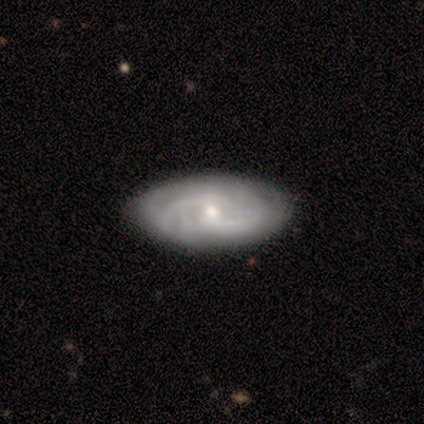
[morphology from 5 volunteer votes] Smooth or featured? 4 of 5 (80%) said featured or disk. Edge-on disk? 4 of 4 (100%) said no. Bar? 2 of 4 (50%) said no. Spiral arms? 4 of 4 (100%) said yes. Spiral winding? 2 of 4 (50%) said medium. Spiral arm count? 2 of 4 (50%) said 2. Bulge size? 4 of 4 (100%) said small. Merging? 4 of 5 (80%) said none.